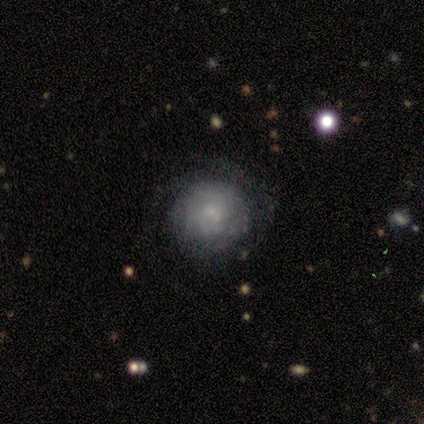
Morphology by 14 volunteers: Smooth or featured? smooth (50%)
How rounded? round (86%)
Merging? minor disturbance (50%)